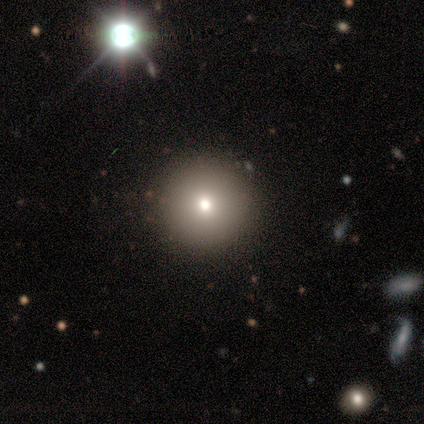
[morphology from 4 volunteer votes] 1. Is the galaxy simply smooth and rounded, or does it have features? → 50% smooth (tied), 50% star or artifact (tied), 0% featured or disk.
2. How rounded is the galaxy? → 100% round, 0% in between, 0% cigar-shaped.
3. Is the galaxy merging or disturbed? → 100% none, 0% minor disturbance, 0% major disturbance, 0% merger.